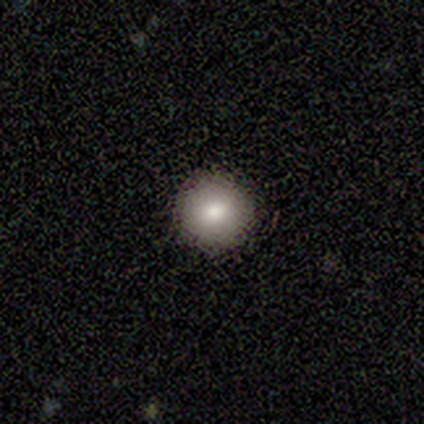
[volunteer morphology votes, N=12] Overall: smooth (100%). How rounded: round (100%). Merging: none (100%).